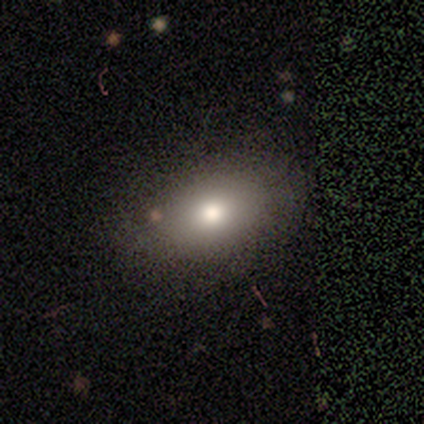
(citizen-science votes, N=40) Smooth or featured: smooth — 85% (featured or disk — 12%)
How rounded: in between — 85% (round — 15%)
Merging: none — 56% (minor disturbance — 10%)